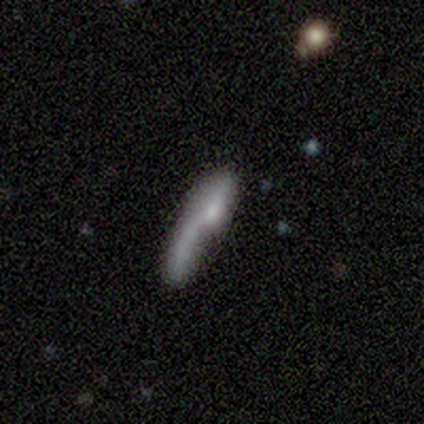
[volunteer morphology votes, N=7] smooth_or_featured: featured or disk (p=0.57) [alt: smooth p=0.29]
disk_edge_on: yes (p=0.75) [alt: no p=0.25]
edge_on_bulge: none (p=0.67) [alt: rounded p=0.33]
merging: major disturbance (p=0.67) [alt: merger p=0.33]